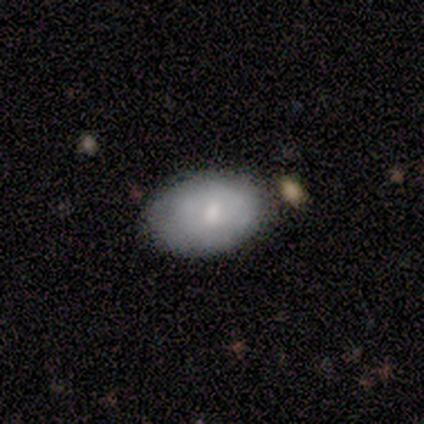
A smooth galaxy with no disk features (60%) that is in between round and cigar-shaped (100%).

Vote fractions:
- Smooth or featured? smooth: 60% / featured or disk: 40% / star or artifact: 0%
- How rounded? in between: 100% / round: 0% / cigar-shaped: 0%
- Merging? none: 60% / minor disturbance: 20% / major disturbance: 20% / merger: 0%